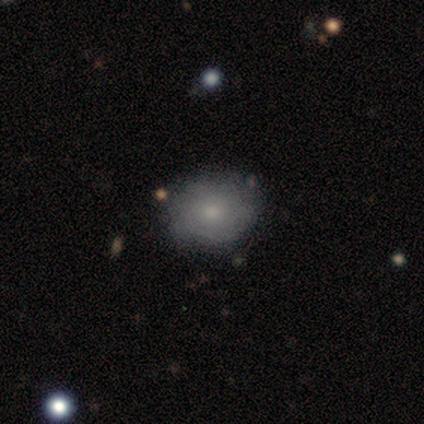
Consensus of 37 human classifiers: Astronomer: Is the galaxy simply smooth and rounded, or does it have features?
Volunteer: smooth — 65%.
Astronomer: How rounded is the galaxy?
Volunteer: in between — 62%.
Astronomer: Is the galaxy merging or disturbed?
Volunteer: none — 77%.